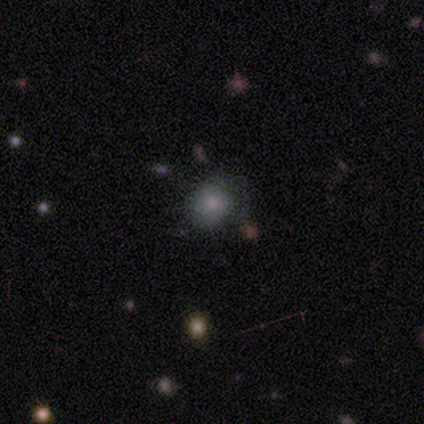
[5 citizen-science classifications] Smooth or featured? 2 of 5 (40%, tied with star or artifact) said smooth. How rounded? 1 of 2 (50%, tied with in between) said round. Merging? 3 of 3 (100%) said none.